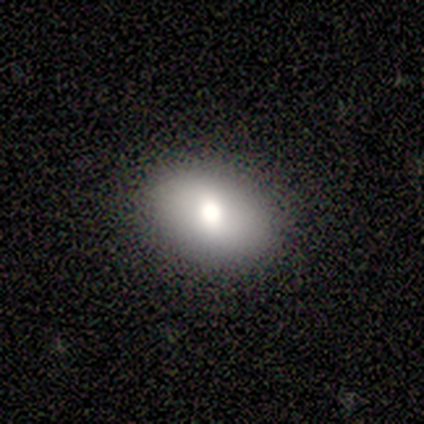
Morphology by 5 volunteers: This appears to be a smooth galaxy with no disk features (100%) that is in between round and cigar-shaped (100%). Merging: none (100%).